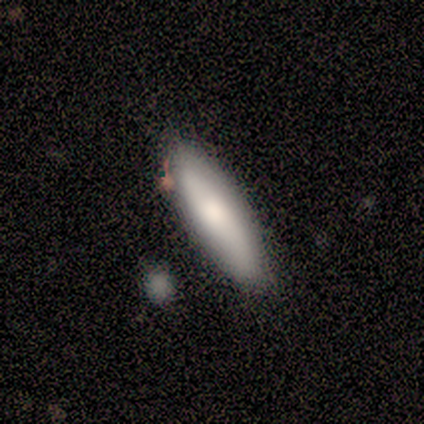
Morphology: type=smooth (100%); roundness=cigar-shaped (60%); merging=minor disturbance (60%).